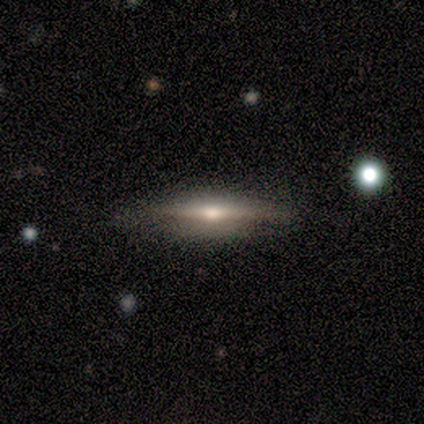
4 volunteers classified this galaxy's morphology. Smooth or featured: smooth — 50% (tied with featured or disk — 50%)
How rounded: cigar-shaped — 100%
Merging: none — 75% (minor disturbance — 25%)